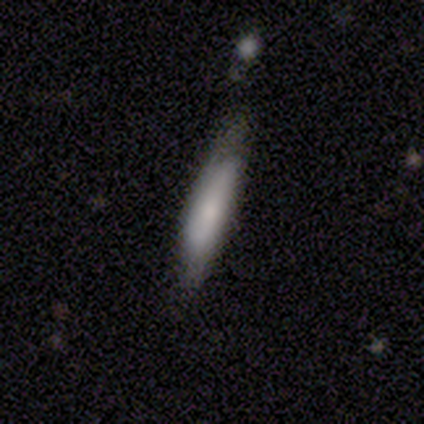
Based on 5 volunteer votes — Q: Smooth or featured?
A: smooth (80%); runner-up: featured or disk (20%)
Q: How rounded?
A: in between (50%); tied with: cigar-shaped (50%)
Q: Merging?
A: none (60%); runner-up: minor disturbance (40%)